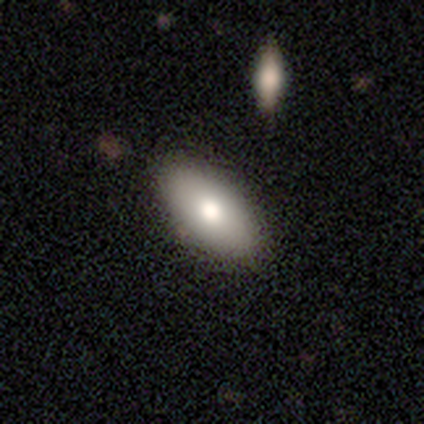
A smooth galaxy with no disk features (92%) that is in between round and cigar-shaped (97%). Merging: none (49%).